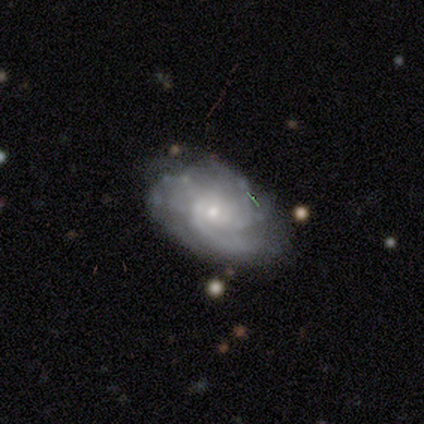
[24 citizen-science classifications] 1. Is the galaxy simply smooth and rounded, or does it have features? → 83% featured or disk, 17% star or artifact, 0% smooth.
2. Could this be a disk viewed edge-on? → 95% no, 5% yes.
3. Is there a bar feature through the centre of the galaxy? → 53% no, 47% weak, 0% strong.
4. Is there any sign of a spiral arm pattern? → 95% yes, 5% no.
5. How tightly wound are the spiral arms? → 50% tight, 44% medium, 6% loose.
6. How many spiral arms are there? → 39% 2, 22% can't tell, 17% 1, 17% 3, 6% more than 4, 0% 4.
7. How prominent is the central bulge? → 58% moderate, 42% small, 0% dominant, 0% large, 0% none.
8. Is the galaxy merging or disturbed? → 45% none, 40% minor disturbance, 15% major disturbance, 0% merger.